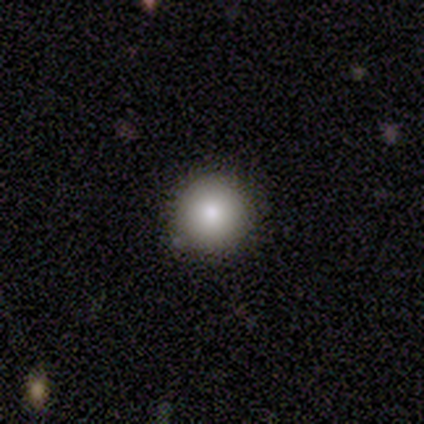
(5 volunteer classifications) Smooth or featured? smooth (100%)
How rounded? round (100%)
Merging? none (80%)